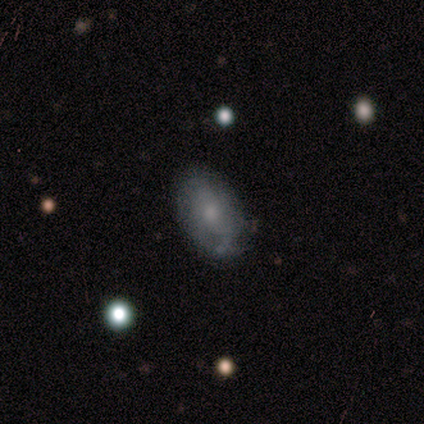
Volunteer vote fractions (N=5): Smooth or featured: featured or disk — 80% (smooth — 20%)
Edge-on disk: no — 100%
Bar: weak — 50% (tied with no — 50%)
Spiral arms: yes — 50% (tied with no — 50%)
Spiral winding: tight — 100%
Spiral arm count: can't tell — 100%
Bulge size: small — 75% (none — 25%)
Merging: none — 60% (minor disturbance — 20%)